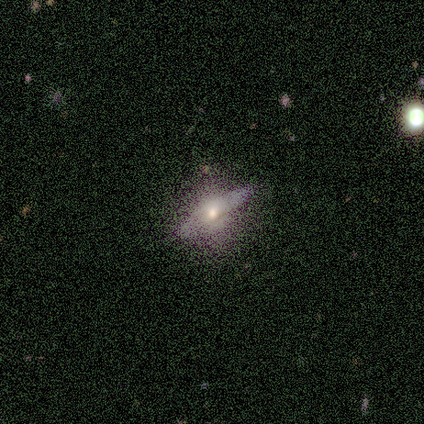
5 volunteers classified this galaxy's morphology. Smooth or featured: smooth — 60% (featured or disk — 40%)
How rounded: cigar-shaped — 67% (in between — 33%)
Merging: none — 80% (minor disturbance — 20%)